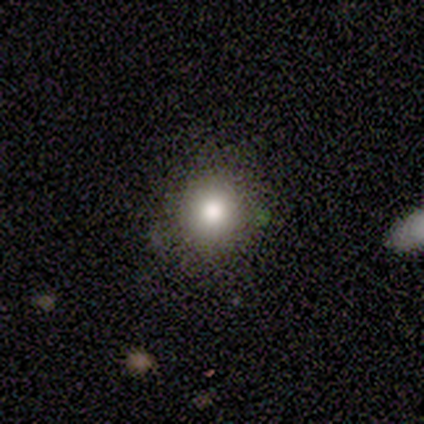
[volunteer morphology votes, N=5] Smooth or featured? smooth (80%)
How rounded? round (100%)
Merging? minor disturbance (60%)